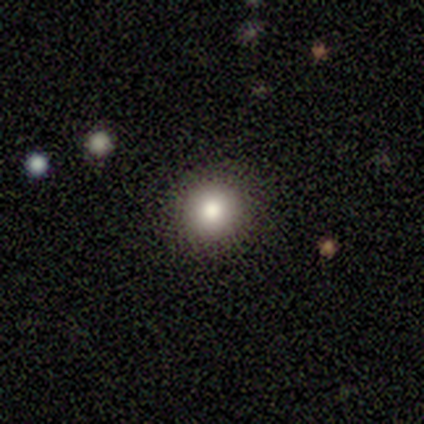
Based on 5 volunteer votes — This is clearly a smooth galaxy (100%). How rounded: clearly round (100%). Merging: clearly none (100%).